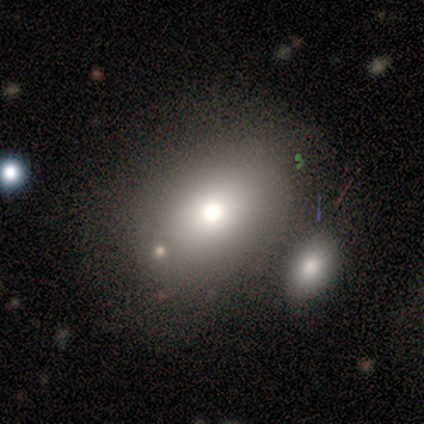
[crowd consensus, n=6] smooth-or-featured: smooth: 100% | featured or disk: 0% | star or artifact: 0%
  how-rounded: in between: 83% | round: 17% | cigar-shaped: 0%
  merging: none: 50% | merger: 33% | minor disturbance: 17% | major disturbance: 0%